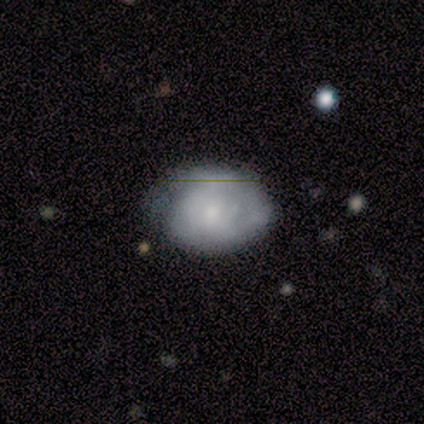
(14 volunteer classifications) smooth_or_featured: smooth (p=0.64) [alt: featured or disk p=0.36]
how_rounded: in between (p=0.78) [alt: round p=0.22]
merging: none (p=0.50) [alt: minor disturbance p=0.36]